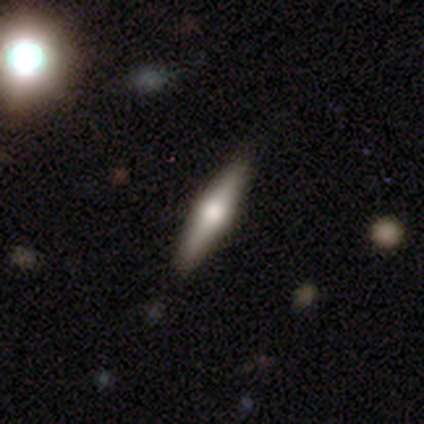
smooth-or-featured: featured or disk: 40% (tied) | star or artifact: 40% (tied) | smooth: 20%
  disk-edge-on: yes: 50% (tied) | no: 50% (tied)
    edge-on-bulge: rounded: 100% | boxy: 0% | none: 0%
  merging: none: 67% | merger: 33% | minor disturbance: 0% | major disturbance: 0%